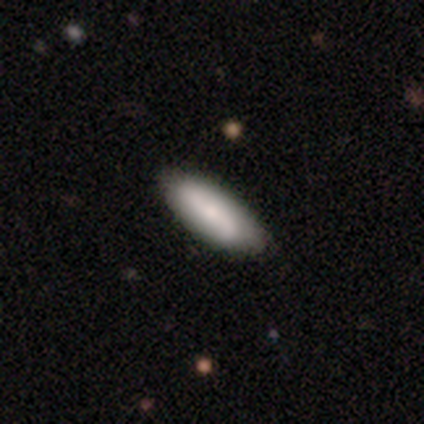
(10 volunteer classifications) Smooth or featured: smooth — 70% (featured or disk — 30%)
How rounded: in between — 57% (cigar-shaped — 43%)
Merging: none — 100%